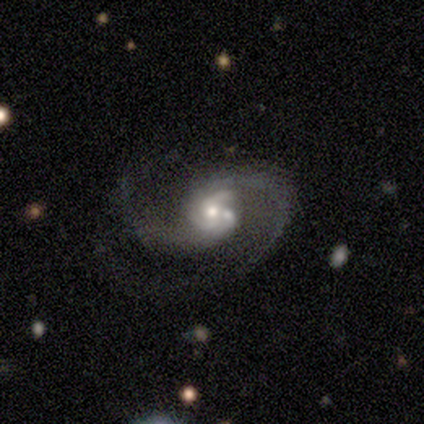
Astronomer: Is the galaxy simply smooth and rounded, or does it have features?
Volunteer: featured or disk — 60%.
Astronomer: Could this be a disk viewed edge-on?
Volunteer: no — 100%.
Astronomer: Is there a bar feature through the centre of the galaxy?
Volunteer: strong — 33%, tied with weak and no at 33%.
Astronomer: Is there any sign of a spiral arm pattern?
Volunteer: yes — 100%.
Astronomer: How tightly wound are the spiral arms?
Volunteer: medium — 100%.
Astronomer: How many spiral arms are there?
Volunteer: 2 — 100%.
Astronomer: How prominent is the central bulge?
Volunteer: moderate — 67%.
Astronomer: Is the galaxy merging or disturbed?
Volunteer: none — 50%.